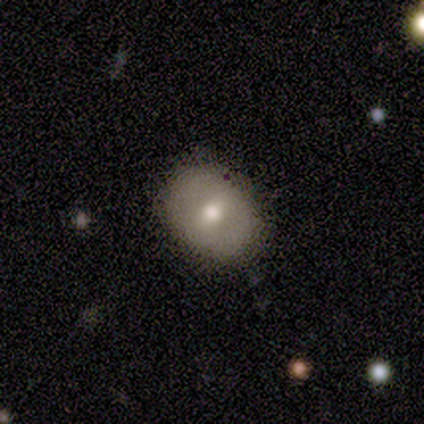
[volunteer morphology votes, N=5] Smooth or featured? 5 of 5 (100%) said smooth. How rounded? 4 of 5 (80%) said in between. Merging? 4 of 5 (80%) said none.